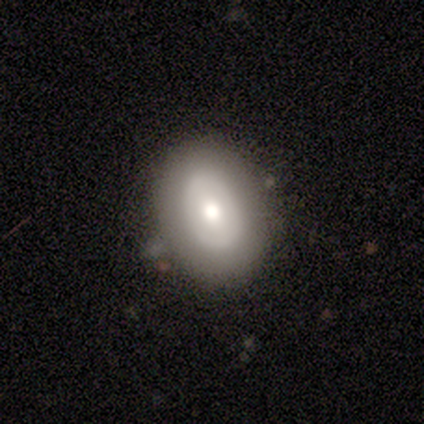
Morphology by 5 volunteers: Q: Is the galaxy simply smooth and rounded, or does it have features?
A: smooth — 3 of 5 (60%).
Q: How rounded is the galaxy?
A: in between — 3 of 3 (100%).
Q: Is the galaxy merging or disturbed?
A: none — 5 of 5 (100%).